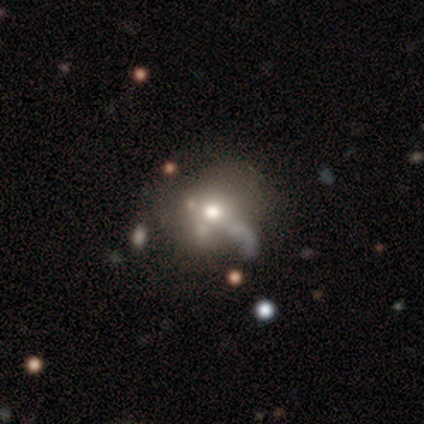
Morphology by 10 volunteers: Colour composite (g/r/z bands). It shows a smooth galaxy with no disk features (60%) that is round (67%). Merging: none (38%, tied with minor disturbance).